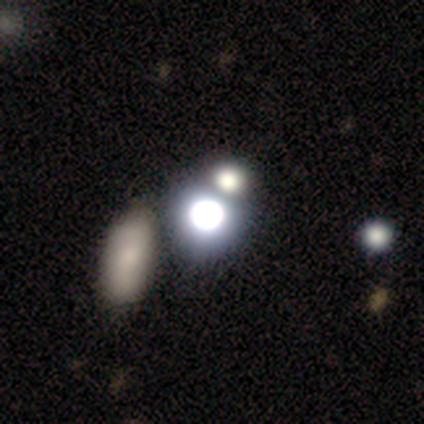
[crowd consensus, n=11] A star or artifact, not a galaxy (55%).